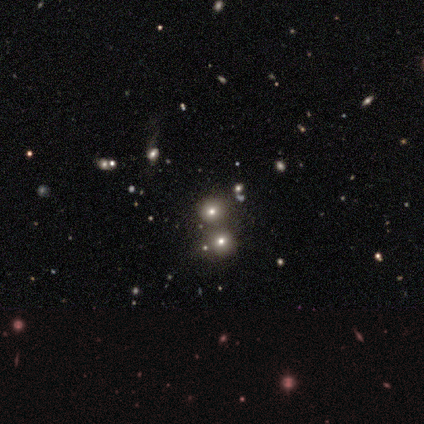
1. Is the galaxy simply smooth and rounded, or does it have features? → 55% star or artifact, 36% smooth, 9% featured or disk.